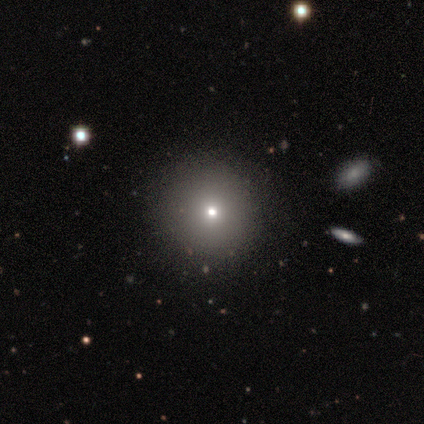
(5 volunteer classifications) smooth-or-featured: featured or disk: 40% (tied) | star or artifact: 40% (tied) | smooth: 20%
  disk-edge-on: yes: 50% (tied) | no: 50% (tied)
    edge-on-bulge: none: 100% | boxy: 0% | rounded: 0%
  merging: none: 67% | major disturbance: 33% | minor disturbance: 0% | merger: 0%